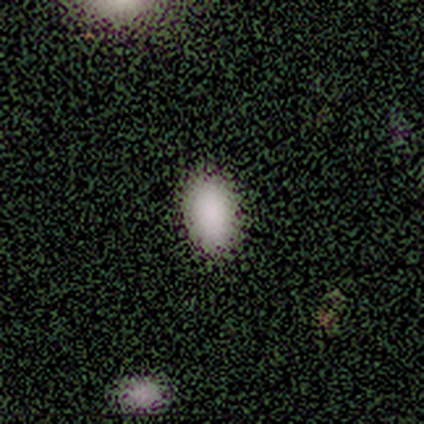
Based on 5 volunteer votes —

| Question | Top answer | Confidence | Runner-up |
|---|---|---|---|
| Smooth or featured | smooth | 100% | — |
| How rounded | in between | 100% | — |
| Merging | none | 80% | minor disturbance (20%) |